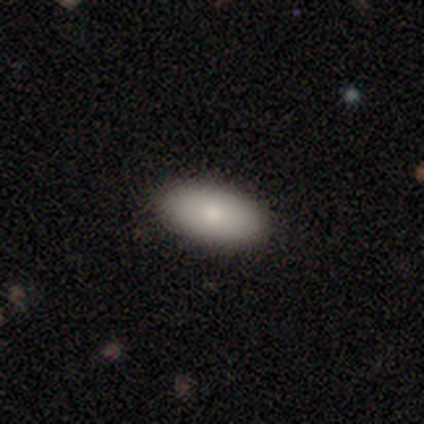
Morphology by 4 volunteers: smooth 100%, featured or disk 0%, star or artifact 0%. Down the decision tree: how rounded — in between (100%); merging — none (100%).